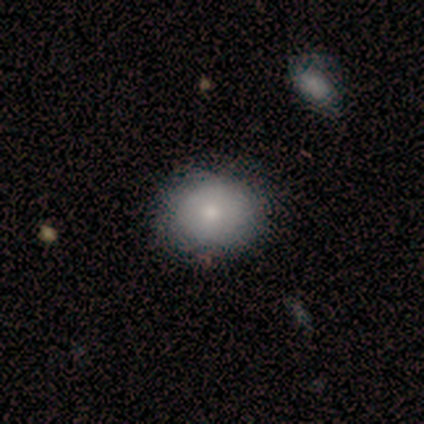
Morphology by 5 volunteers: smooth_or_featured: smooth (p=0.80) [alt: featured or disk p=0.20]
how_rounded: round (p=1.00)
merging: none (p=0.40) [tied with: minor disturbance p=0.40]